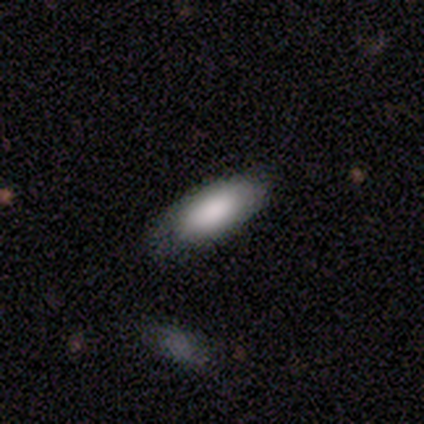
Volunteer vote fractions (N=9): Smooth or featured: smooth — 89% (featured or disk — 11%)
How rounded: in between — 75% (cigar-shaped — 25%)
Merging: none — 89% (minor disturbance — 11%)